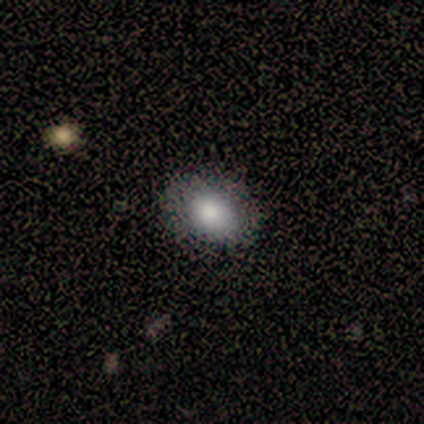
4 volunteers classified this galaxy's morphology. Smooth or featured? smooth (75%)
How rounded? in between (67%)
Merging? none (75%)